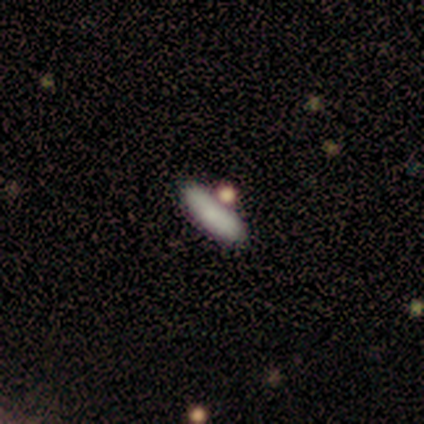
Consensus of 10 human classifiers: Overall: smooth (80%). How rounded: cigar-shaped (62%; in between 38%). Merging: none (60%; merger 30%).